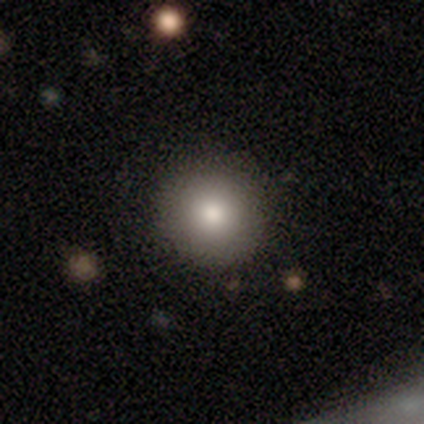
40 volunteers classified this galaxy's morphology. This is clearly a smooth galaxy (90%). How rounded: clearly round (94%). Merging: likely none (62%).